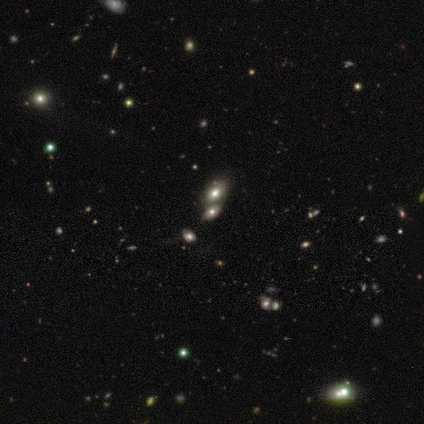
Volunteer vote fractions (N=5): This is likely a smooth galaxy (60%). How rounded: likely in between (67%). Merging: possibly none (50%).